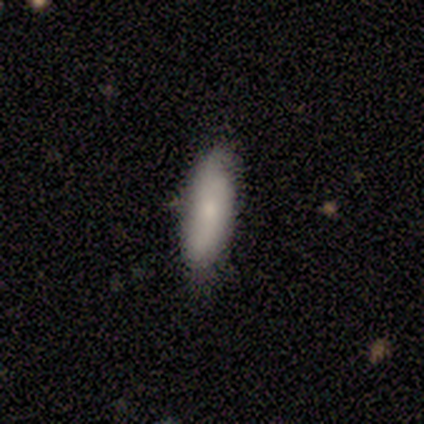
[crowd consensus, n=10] This appears to be a smooth galaxy with no disk features (50%, tied with featured or disk) that is in between round and cigar-shaped (60%). Merging: none (90%).